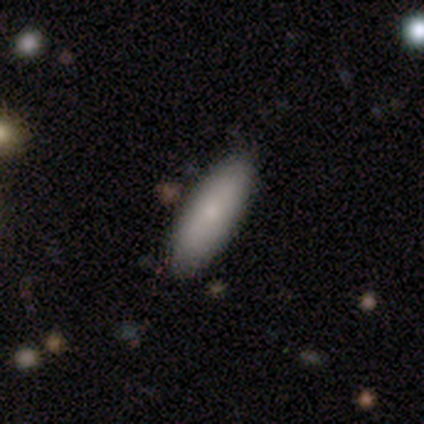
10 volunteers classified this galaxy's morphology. smooth_or_featured: smooth (p=1.00)
how_rounded: in between (p=0.70) [alt: cigar-shaped p=0.30]
merging: none (p=0.90) [alt: merger p=0.10]